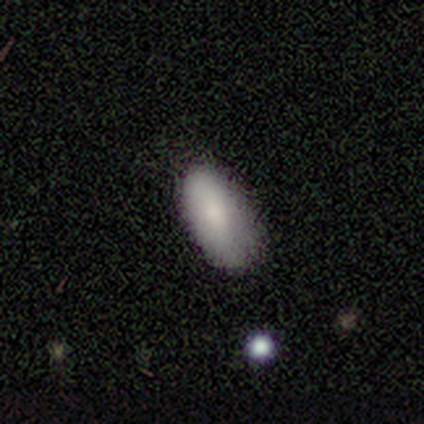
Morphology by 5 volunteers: smooth 100%, featured or disk 0%, star or artifact 0%. Down the decision tree: how rounded — in between (100%); merging — none (60%).